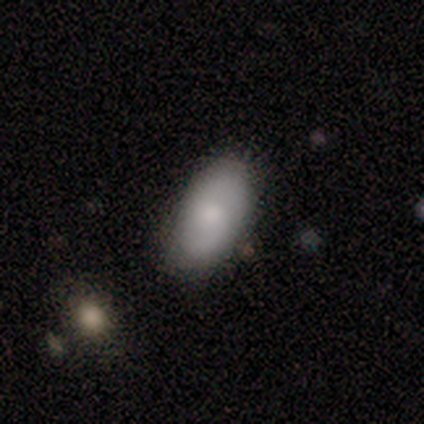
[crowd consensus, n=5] smooth-or-featured: smooth: 60% | featured or disk: 40% | star or artifact: 0%
  how-rounded: in between: 100% | round: 0% | cigar-shaped: 0%
  merging: none: 60% | minor disturbance: 20% | merger: 20% | major disturbance: 0%